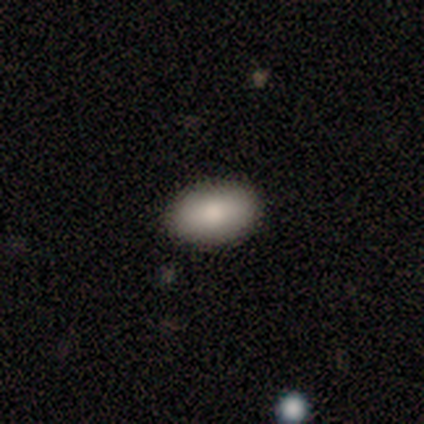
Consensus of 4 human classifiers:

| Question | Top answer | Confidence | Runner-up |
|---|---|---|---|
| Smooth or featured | smooth | 100% | — |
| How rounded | in between | 100% | — |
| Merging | none | 100% | — |